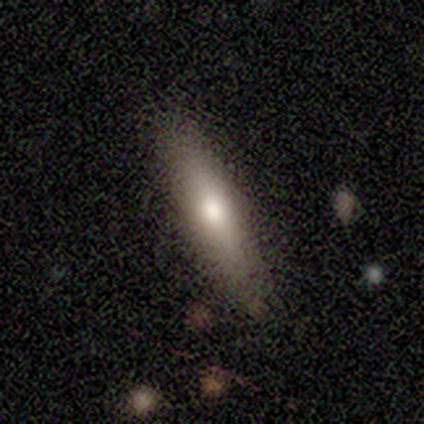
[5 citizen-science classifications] Smooth or featured? smooth (60%)
How rounded? cigar-shaped (100%)
Merging? none (80%)